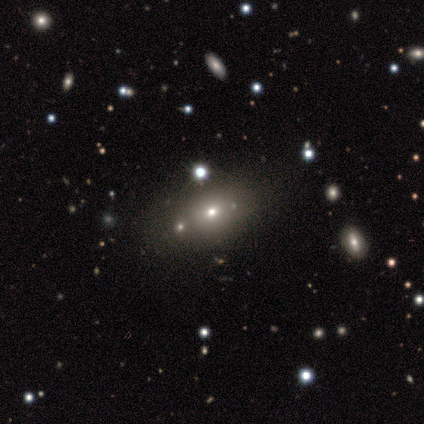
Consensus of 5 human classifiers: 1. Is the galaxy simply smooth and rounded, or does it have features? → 60% featured or disk, 40% smooth, 0% star or artifact.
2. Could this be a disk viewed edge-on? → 100% no, 0% yes.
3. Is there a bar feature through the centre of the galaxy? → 100% no, 0% strong, 0% weak.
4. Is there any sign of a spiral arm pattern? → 100% no, 0% yes.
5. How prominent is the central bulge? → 67% small, 33% moderate, 0% dominant, 0% large, 0% none.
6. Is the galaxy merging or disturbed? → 100% none, 0% minor disturbance, 0% major disturbance, 0% merger.